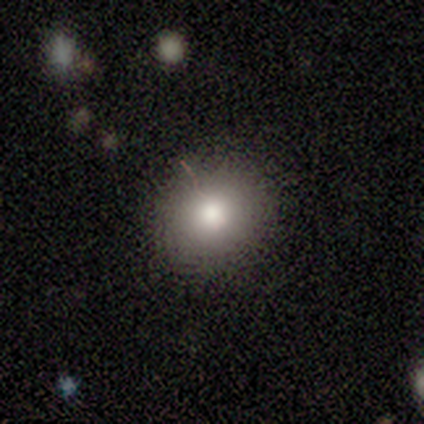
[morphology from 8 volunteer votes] Overall: smooth (88%). How rounded: round (86%). Merging: none (86%).